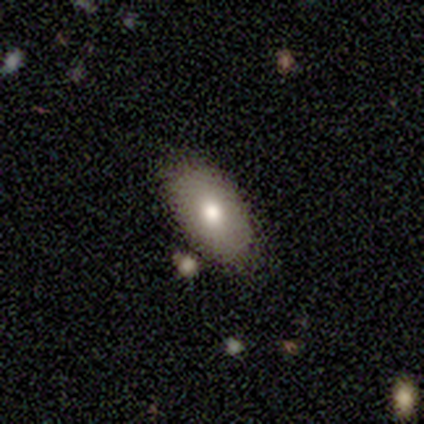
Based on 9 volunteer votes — A smooth galaxy with no disk features (67%) that is in between round and cigar-shaped (100%).

Vote fractions:
- Smooth or featured? smooth: 67% / featured or disk: 33% / star or artifact: 0%
- How rounded? in between: 100% / round: 0% / cigar-shaped: 0%
- Merging? none: 78% / minor disturbance: 11% / major disturbance: 11% / merger: 0%